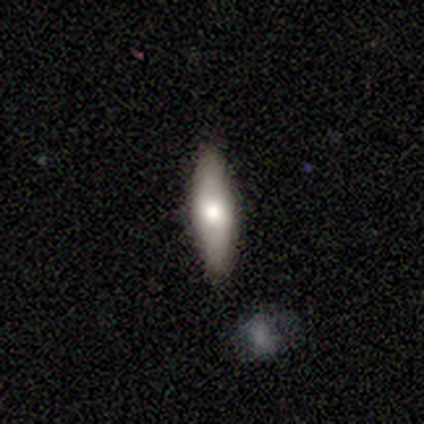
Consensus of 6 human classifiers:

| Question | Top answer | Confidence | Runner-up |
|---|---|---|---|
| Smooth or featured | smooth | 67% | featured or disk (33%) |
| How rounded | in between | 50% | tied: cigar-shaped (50%) |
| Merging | none | 100% | — |